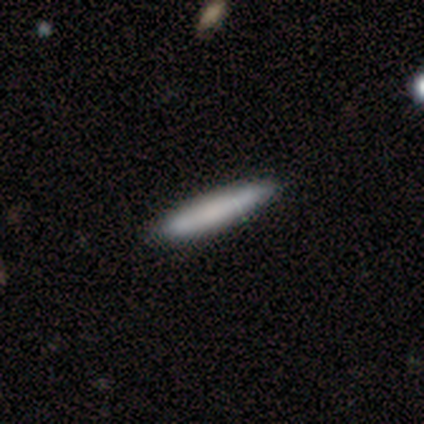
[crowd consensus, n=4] Smooth or featured?
  - smooth: 100% *
  - featured or disk: 0%
  - star or artifact: 0%
How rounded?
  - cigar-shaped: 75% *
  - in between: 25%
  - round: 0%
Merging?
  - none: 100% *
  - minor disturbance: 0%
  - major disturbance: 0%
  - merger: 0%